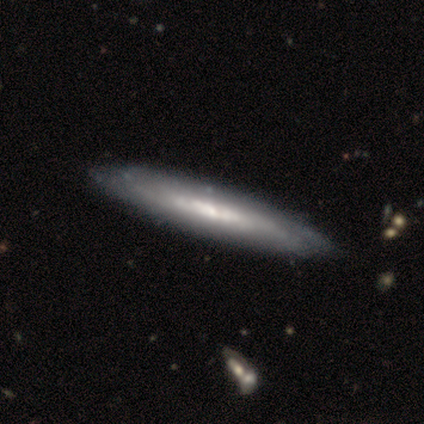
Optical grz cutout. It shows a featured or disk galaxy (80%) with no bar (67%), tight (67%) spiral arms (100%) and a small central bulge (67%). Merging: none (100%).